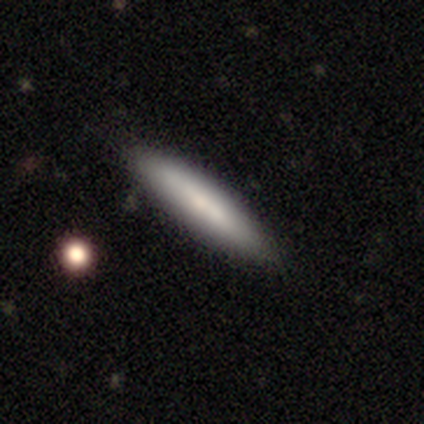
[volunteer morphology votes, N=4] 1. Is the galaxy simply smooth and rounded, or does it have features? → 50% smooth (tied), 50% featured or disk (tied), 0% star or artifact.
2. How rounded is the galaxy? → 100% cigar-shaped, 0% round, 0% in between.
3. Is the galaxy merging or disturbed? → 100% none, 0% minor disturbance, 0% major disturbance, 0% merger.